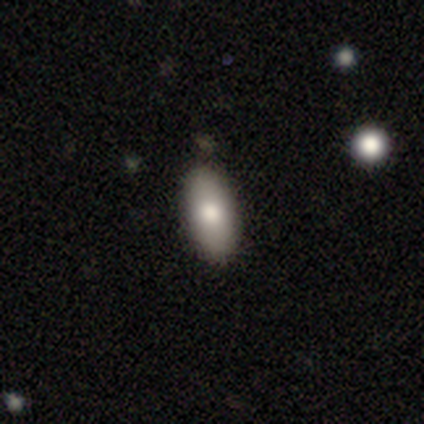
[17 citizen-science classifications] Smooth or featured? 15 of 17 (88%) said smooth. How rounded? 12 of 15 (80%) said in between. Merging? 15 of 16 (94%) said none.